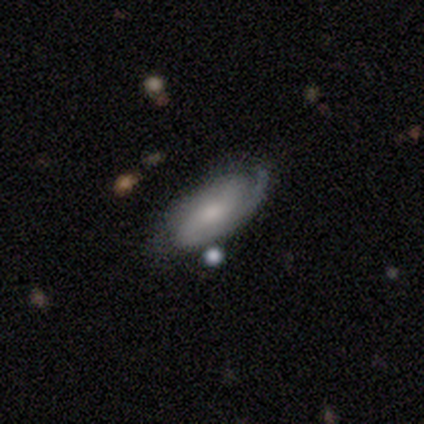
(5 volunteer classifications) featured or disk 100%, smooth 0%, star or artifact 0%. Down the decision tree: edge-on disk — no (100%); bar — no (60%); spiral arms — yes (100%); spiral arm count — 2 (80%); spiral winding — tight (80%); bulge size — small (80%); merging — none (80%).